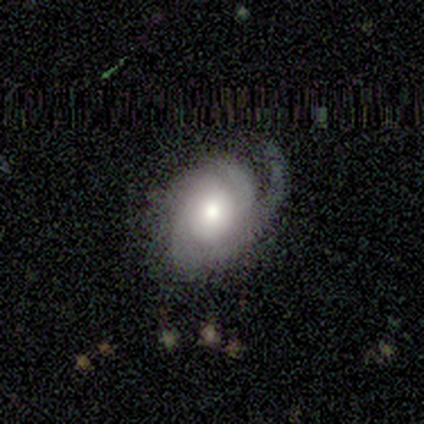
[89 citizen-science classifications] smooth-or-featured: featured or disk: 79% | smooth: 15% | star or artifact: 7%
  disk-edge-on: no: 97% | yes: 3%
    bar: no: 85% | weak: 13% | strong: 1%
    has-spiral-arms: yes: 93% | no: 7%
      spiral-winding: tight: 52% | medium: 35% | loose: 13%
      spiral-arm-count: 1: 41% | 2: 37% | can't tell: 14% | 3: 8% | 4: 0% | more than 4: 0%
    bulge-size: moderate: 66% | large: 24% | dominant: 6% | small: 4% | none: 0%
  merging: none: 45% | major disturbance: 33% | minor disturbance: 22% | merger: 1%